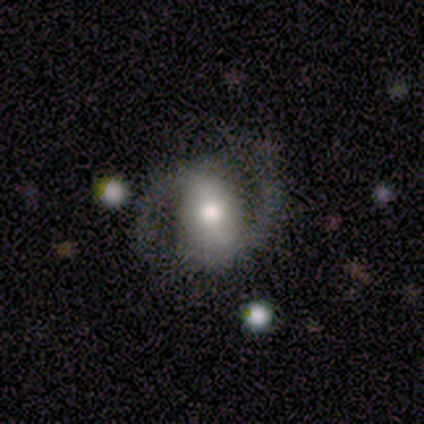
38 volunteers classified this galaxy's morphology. featured or disk 76%, smooth 16%, star or artifact 8%. Down the decision tree: edge-on disk — no (97%); bar — strong (57%); spiral arms — yes (93%); spiral arm count — 2 (96%); spiral winding — medium (65%); bulge size — moderate (50%); merging — none (66%).